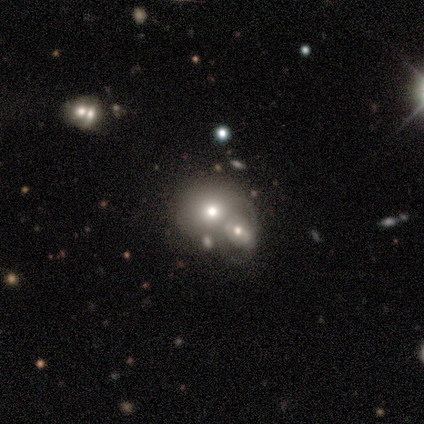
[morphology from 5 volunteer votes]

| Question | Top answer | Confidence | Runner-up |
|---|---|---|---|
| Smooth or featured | smooth | 60% | featured or disk (40%) |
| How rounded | round | 100% | — |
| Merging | merger | 60% | none (20%) |